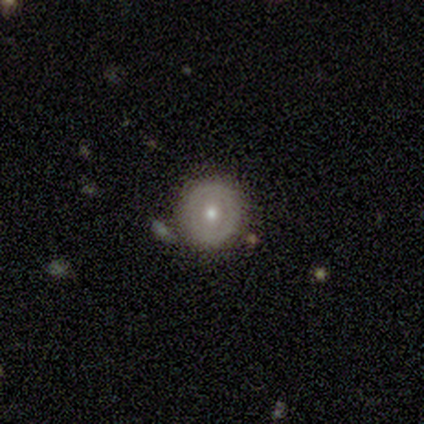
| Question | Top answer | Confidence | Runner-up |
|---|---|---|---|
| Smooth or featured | smooth | 100% | — |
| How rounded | round | 100% | — |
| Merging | none | 100% | — |